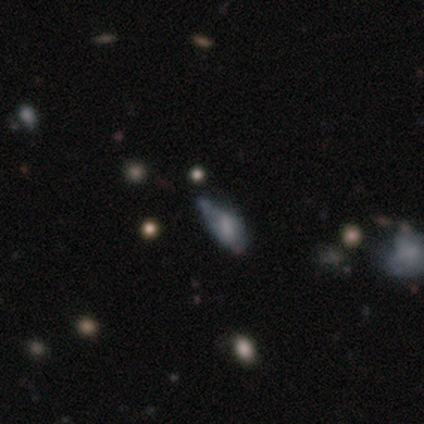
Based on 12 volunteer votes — Volunteers were most divided on "merging": minor disturbance: 73%, none: 18%, major disturbance: 9%, merger: 0%. More confident: how rounded — in between (78%); smooth or featured — smooth (75%).